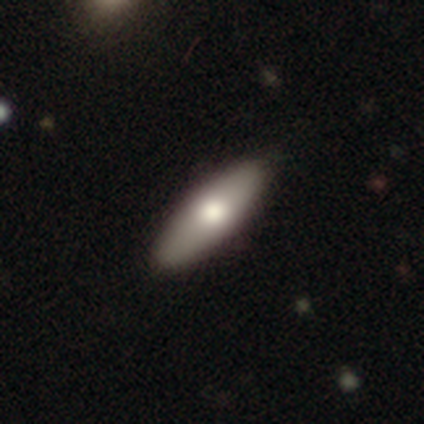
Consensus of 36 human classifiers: Q: Smooth or featured?
A: smooth (69%); runner-up: featured or disk (31%)
Q: How rounded?
A: in between (56%); runner-up: cigar-shaped (44%)
Q: Merging?
A: none (94%); runner-up: minor disturbance (3%)